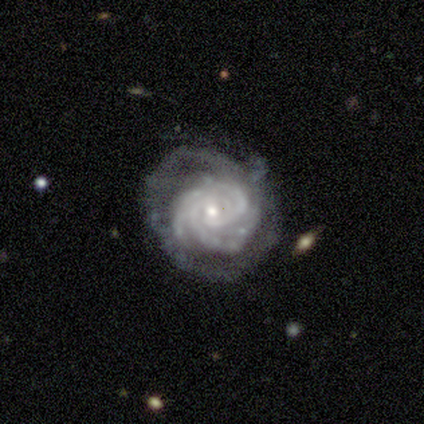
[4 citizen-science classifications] A featured or disk galaxy (100%) with no bar (75%), 3 (50%) tight (100%) spiral arms (100%) and a small central bulge (75%). Merging: minor disturbance (50%).